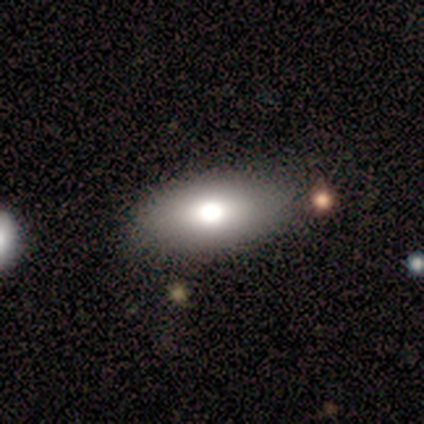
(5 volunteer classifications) Overall: smooth (40%, tied with featured or disk). How rounded: in between (100%). Merging: none (100%).